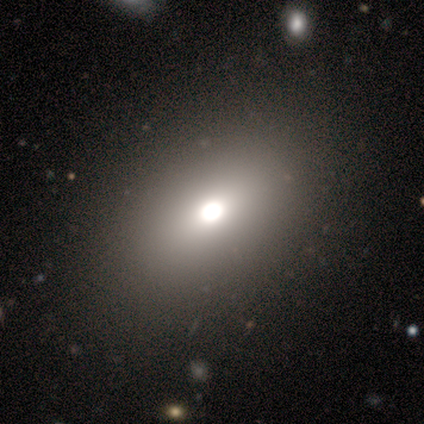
Volunteers were most divided on "how rounded": in between: 67%, round: 33%, cigar-shaped: 0%. More confident: merging — none (100%); smooth or featured — smooth (75%).